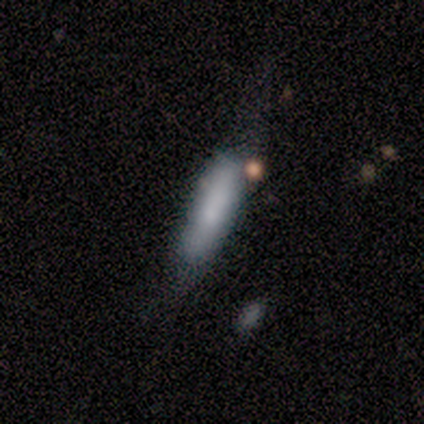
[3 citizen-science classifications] This appears to be a smooth galaxy with no disk features (100%) that is cigar-shaped (67%). Merging: none (67%).